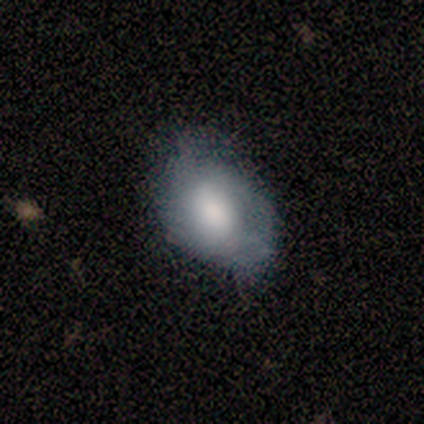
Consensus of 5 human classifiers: This is clearly a smooth galaxy (80%). How rounded: clearly in between (100%). Merging: clearly none (80%).